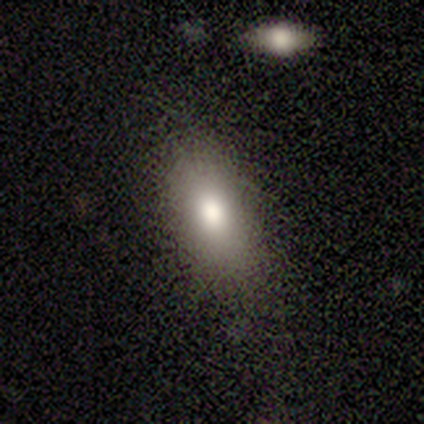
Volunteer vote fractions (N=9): Q: Smooth or featured?
A: smooth (67%); runner-up: star or artifact (22%)
Q: How rounded?
A: in between (100%)
Q: Merging?
A: none (86%); runner-up: minor disturbance (14%)